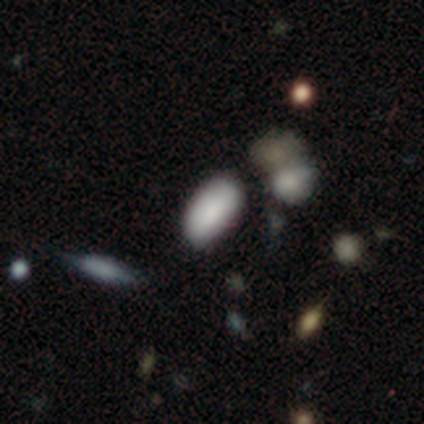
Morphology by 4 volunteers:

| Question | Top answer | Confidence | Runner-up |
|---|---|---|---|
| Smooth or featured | smooth | 75% | star or artifact (25%) |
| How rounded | in between | 100% | — |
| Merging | none | 67% | minor disturbance (33%) |